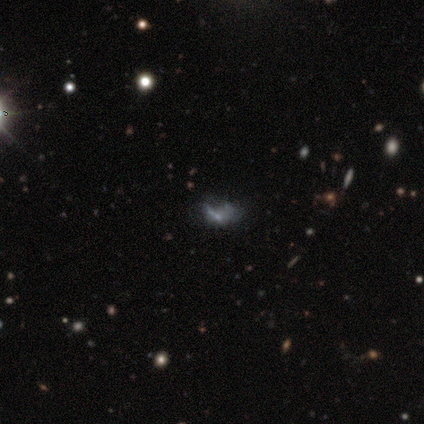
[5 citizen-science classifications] A star or artifact, not a galaxy (60%).

Vote fractions:
- Smooth or featured? star or artifact: 60% / smooth: 20% / featured or disk: 20%